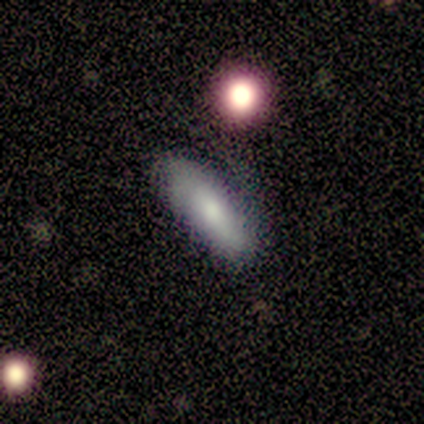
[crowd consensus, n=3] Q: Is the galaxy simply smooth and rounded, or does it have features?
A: smooth — 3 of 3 (100%).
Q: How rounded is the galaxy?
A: in between — 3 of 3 (100%).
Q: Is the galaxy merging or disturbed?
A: none — 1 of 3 (33%, tied with minor disturbance and major disturbance).